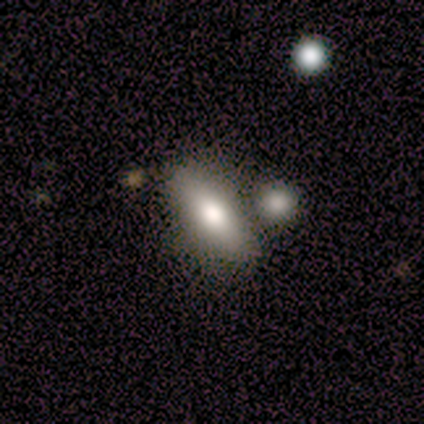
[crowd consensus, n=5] smooth_or_featured: smooth (p=0.80) [alt: featured or disk p=0.20]
how_rounded: in between (p=0.75) [alt: cigar-shaped p=0.25]
merging: none (p=0.40) [tied with: merger p=0.40]